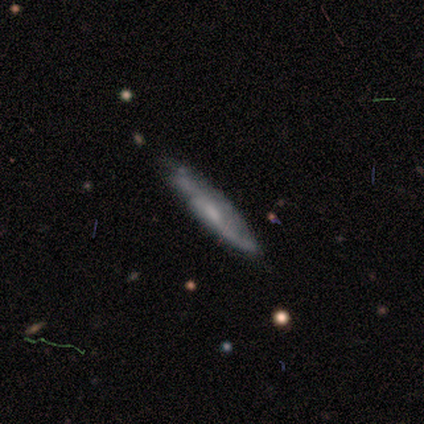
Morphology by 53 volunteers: Q: Smooth or featured?
A: featured or disk (74%); runner-up: smooth (23%)
Q: Edge-on disk?
A: yes (54%); runner-up: no (46%)
Q: Edge-on bulge?
A: none (57%); runner-up: rounded (38%)
Q: Merging?
A: none (63%); runner-up: minor disturbance (33%)